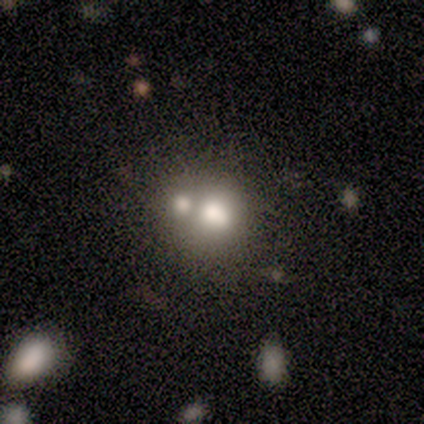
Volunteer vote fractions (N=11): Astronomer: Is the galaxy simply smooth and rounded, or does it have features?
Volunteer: smooth — 82%.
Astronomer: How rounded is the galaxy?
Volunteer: round — 100%.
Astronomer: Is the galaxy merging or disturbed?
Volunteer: merger — 55% (runner-up: none, 45%).